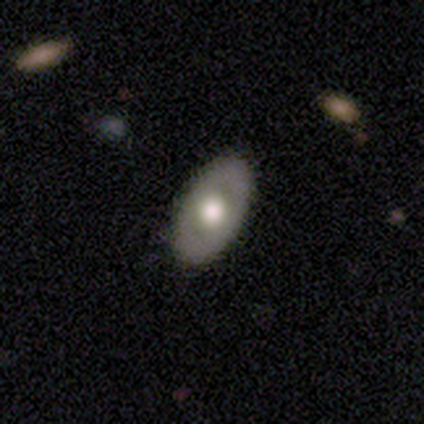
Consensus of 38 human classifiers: smooth 47% (tied), featured or disk 47% (tied), star or artifact 5%. Down the decision tree: how rounded — in between (94%); merging — none (97%).